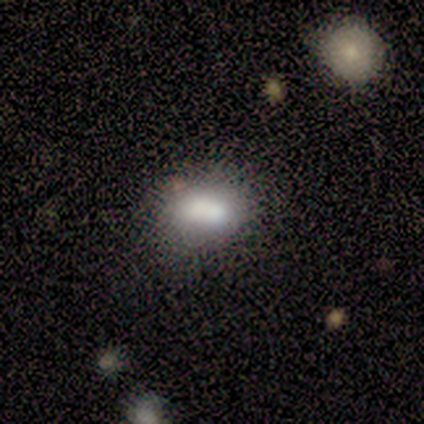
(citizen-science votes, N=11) This appears to be a smooth galaxy with no disk features (64%) that is in between round and cigar-shaped (86%). Merging: none (50%).